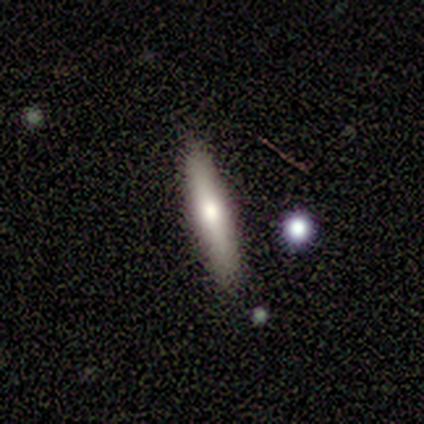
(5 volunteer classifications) A smooth galaxy with no disk features (80%) that is cigar-shaped (100%). Merging: none (80%).